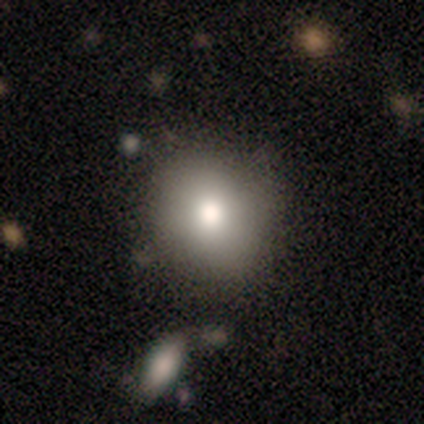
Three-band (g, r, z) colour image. It shows a smooth galaxy with no disk features (100%) that is round (100%). Merging: none (100%).